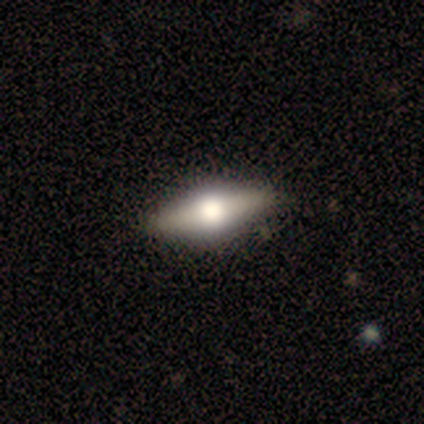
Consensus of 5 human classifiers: featured or disk 60%, smooth 20%, star or artifact 20%. Down the decision tree: edge-on disk — yes (100%); edge-on bulge — rounded (100%); merging — none (100%).